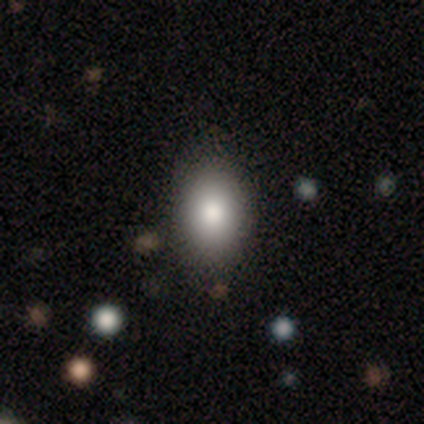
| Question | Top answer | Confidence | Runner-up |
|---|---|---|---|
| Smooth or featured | smooth | 50% | featured or disk (25%) |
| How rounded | round | 50% | tied: in between (50%) |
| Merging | none | 67% | minor disturbance (33%) |